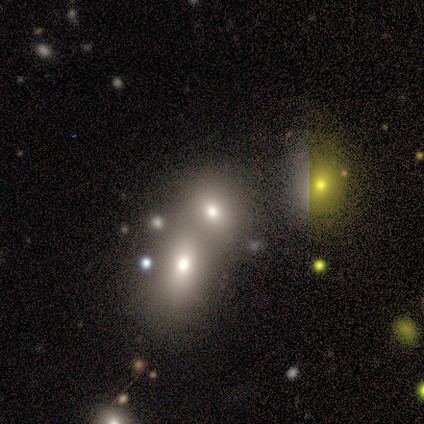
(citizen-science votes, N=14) Smooth or featured? 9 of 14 (64%) said smooth. How rounded? 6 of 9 (67%) said in between. Merging? 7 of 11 (64%) said merger.